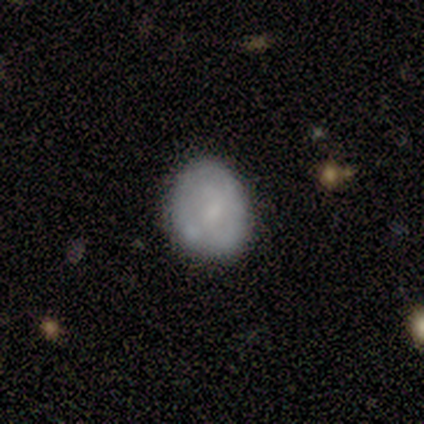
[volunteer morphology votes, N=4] Overall: smooth (75%). How rounded: round (67%; in between 33%). Merging: none (50%, tied with minor disturbance).